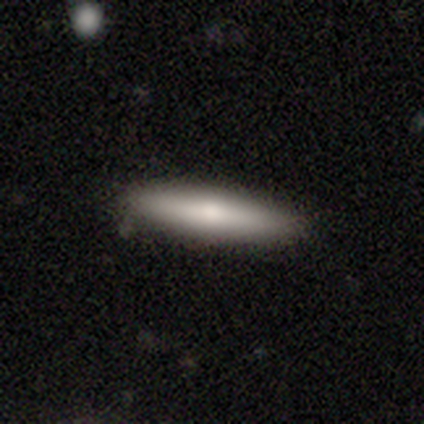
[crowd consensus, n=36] smooth_or_featured: smooth (p=0.69) [alt: featured or disk p=0.28]
how_rounded: cigar-shaped (p=0.88) [alt: in between p=0.12]
merging: none (p=0.57) [alt: minor disturbance p=0.03]